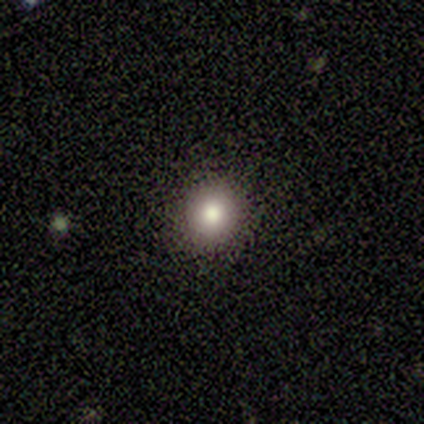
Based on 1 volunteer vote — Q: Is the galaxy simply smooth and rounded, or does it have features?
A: smooth — 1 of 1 (100%).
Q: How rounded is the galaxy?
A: round — 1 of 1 (100%).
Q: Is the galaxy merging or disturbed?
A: none — 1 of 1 (100%).